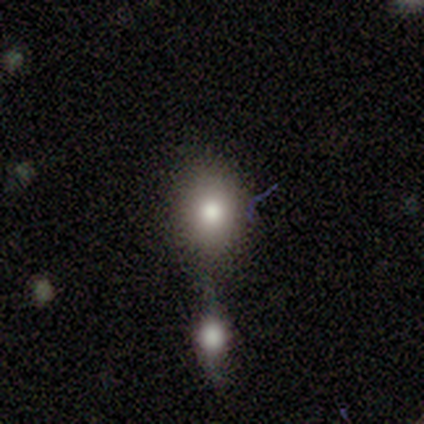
Morphology: type=smooth (60%); roundness=round (67%); merging=none (50%).